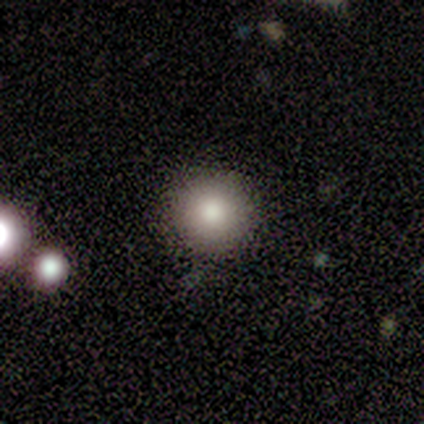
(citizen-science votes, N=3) Morphology: type=smooth (67%); roundness=round (100%); merging=none (100%).